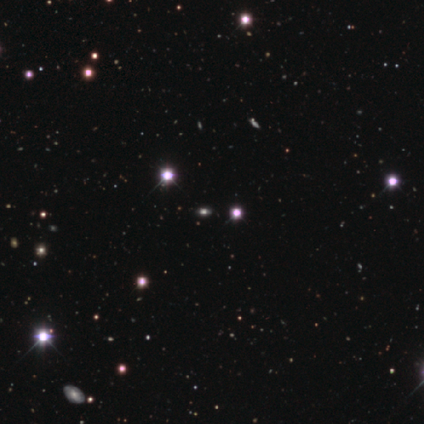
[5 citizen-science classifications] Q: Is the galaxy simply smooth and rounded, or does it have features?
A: star or artifact — 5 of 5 (100%).